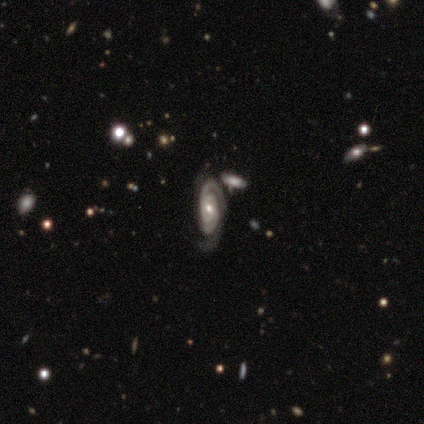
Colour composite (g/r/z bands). It shows a featured or disk galaxy (100%) with no bar (75%), 2 (75%) tight (50%, tied with medium) spiral arms (100%) and a small central bulge (75%). Merging: none (50%, tied with merger).